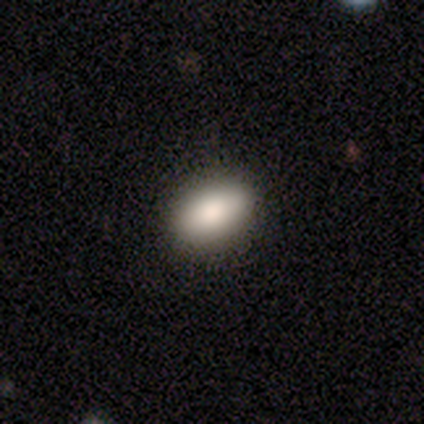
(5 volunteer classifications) smooth 100%, featured or disk 0%, star or artifact 0%. Down the decision tree: how rounded — in between (60%); merging — none (100%).